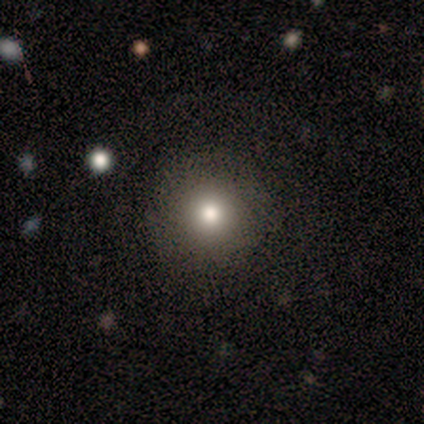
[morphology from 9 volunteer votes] Smooth or featured? smooth (78%)
How rounded? round (100%)
Merging? none (62%)